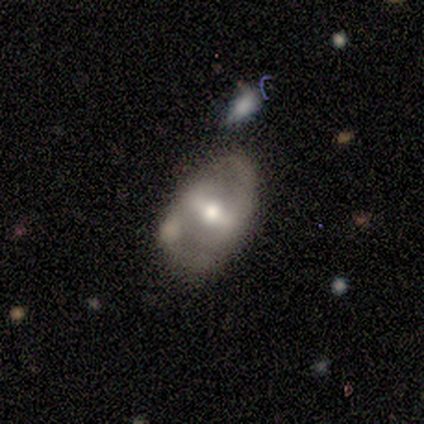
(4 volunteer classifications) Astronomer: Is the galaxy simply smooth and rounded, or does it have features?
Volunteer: featured or disk — 50%.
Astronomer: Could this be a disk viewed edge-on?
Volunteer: no — 100%.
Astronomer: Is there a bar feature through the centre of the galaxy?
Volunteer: strong — 50%, tied with weak at 50%.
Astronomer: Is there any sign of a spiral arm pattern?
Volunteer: yes — 100%.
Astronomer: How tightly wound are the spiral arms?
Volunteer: medium — 100%.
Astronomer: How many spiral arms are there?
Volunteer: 2 — 100%.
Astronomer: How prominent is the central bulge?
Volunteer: moderate — 100%.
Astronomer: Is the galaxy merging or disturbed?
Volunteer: minor disturbance — 67%.